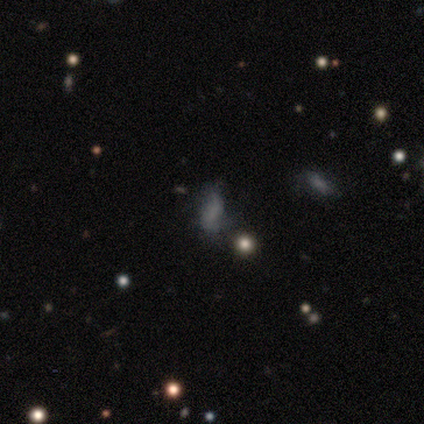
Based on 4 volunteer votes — smooth_or_featured: smooth (p=0.75) [alt: featured or disk p=0.25]
how_rounded: round (p=0.67) [alt: in between p=0.33]
merging: none (p=0.25) [tied with: minor disturbance p=0.25, major disturbance p=0.25, merger p=0.25]